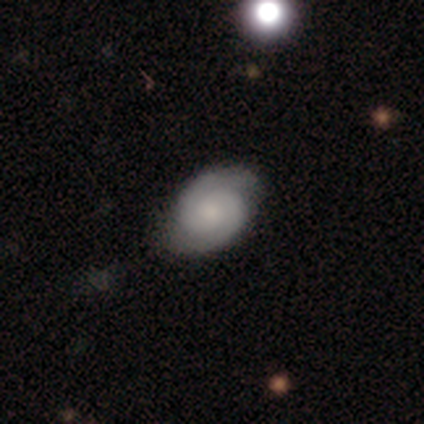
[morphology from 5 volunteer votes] type=featured or disk (80%); edge-on=no (100%); bar=no (75%); spiral arms=yes (100%); winding=tight (50%, tied with medium); arm count=2 (100%); bulge=moderate (50%, tied with small); merging=none (80%).